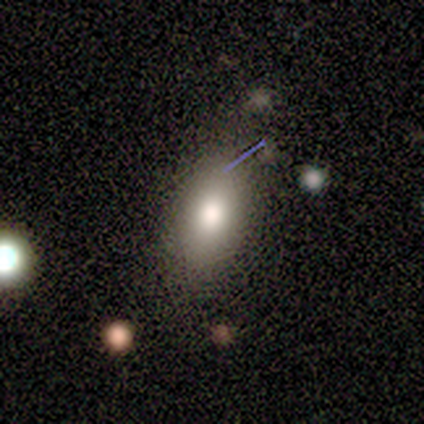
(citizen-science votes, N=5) smooth 80%, star or artifact 20%, featured or disk 0%. Down the decision tree: how rounded — in between (100%); merging — none (75%).